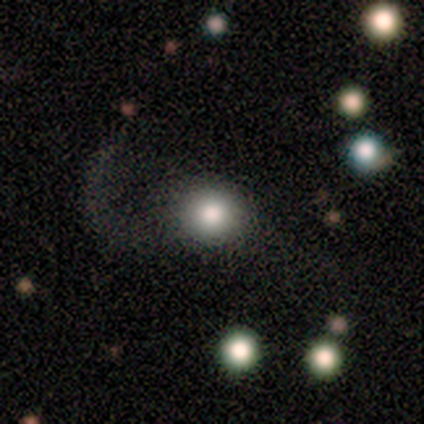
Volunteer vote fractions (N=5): Smooth or featured?
  - smooth: 80% *
  - star or artifact: 20%
  - featured or disk: 0%
How rounded?
  - round: 75% *
  - in between: 25%
  - cigar-shaped: 0%
Merging?
  - none: 50% * (tied)
  - major disturbance: 50% * (tied)
  - minor disturbance: 0%
  - merger: 0%